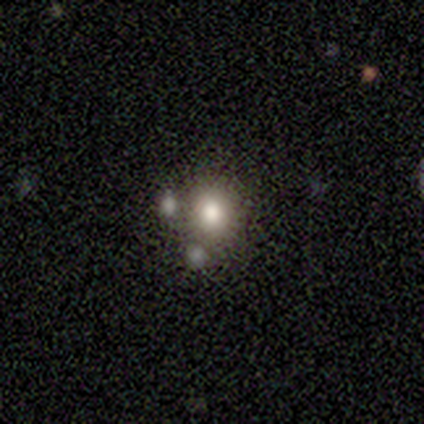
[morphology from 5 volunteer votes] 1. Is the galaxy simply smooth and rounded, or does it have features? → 80% smooth, 20% featured or disk, 0% star or artifact.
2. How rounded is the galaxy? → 75% round, 25% in between, 0% cigar-shaped.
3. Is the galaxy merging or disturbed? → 100% none, 0% minor disturbance, 0% major disturbance, 0% merger.